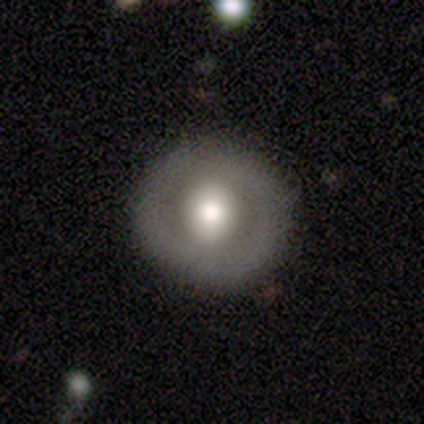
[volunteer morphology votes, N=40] A smooth galaxy with no disk features (55%) that is round (95%).

Vote fractions:
- Smooth or featured? smooth: 55% / featured or disk: 40% / star or artifact: 5%
- How rounded? round: 95% / in between: 5% / cigar-shaped: 0%
- Merging? none: 82% / minor disturbance: 18% / major disturbance: 0% / merger: 0%